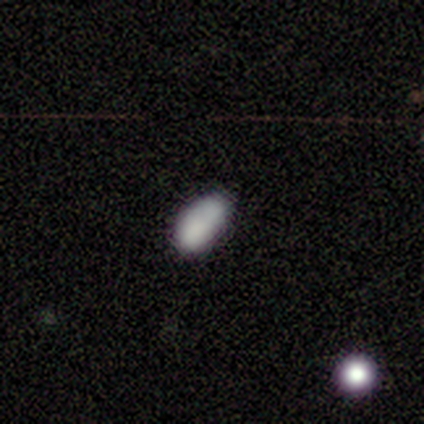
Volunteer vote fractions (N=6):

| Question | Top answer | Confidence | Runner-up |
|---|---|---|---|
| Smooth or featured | smooth | 83% | featured or disk (17%) |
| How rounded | in between | 100% | — |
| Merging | none | 50% | merger (33%) |